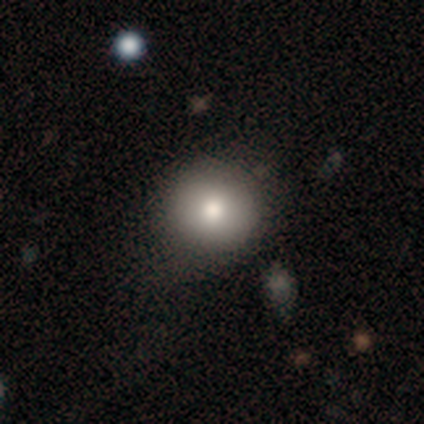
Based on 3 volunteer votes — Morphology: type=smooth (100%); roundness=round (100%); merging=none (100%).